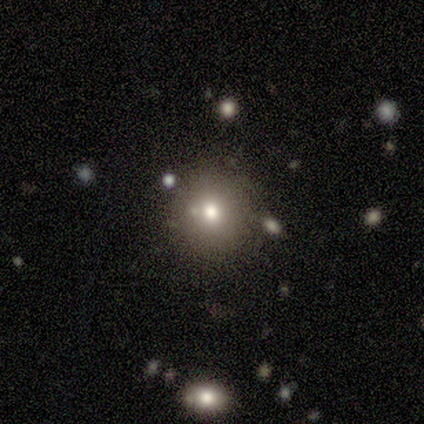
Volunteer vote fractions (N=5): Smooth or featured? 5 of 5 (100%) said smooth. How rounded? 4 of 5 (80%) said round. Merging? 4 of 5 (80%) said none.